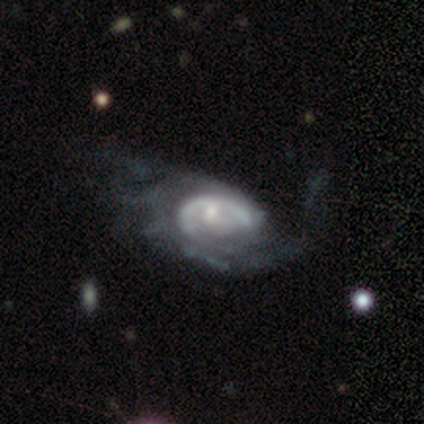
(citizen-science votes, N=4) A featured or disk galaxy (100%) with a weak bar (50%, tied with no), 2 (50%) tight (50%, tied with medium) spiral arms (100%) and a small central bulge (75%).

Vote fractions:
- Smooth or featured? featured or disk: 100% / smooth: 0% / star or artifact: 0%
- Edge-on disk? no: 100% / yes: 0%
- Bar? weak: 50% (tied) / no: 50% (tied) / strong: 0%
- Spiral arms? yes: 100% / no: 0%
- Spiral winding? tight: 50% (tied) / medium: 50% (tied) / loose: 0%
- Spiral arm count? 2: 50% / 1: 25% / 3: 25% / 4: 0% / more than 4: 0% / can't tell: 0%
- Bulge size? small: 75% / moderate: 25% / dominant: 0% / large: 0% / none: 0%
- Merging? none: 50% / minor disturbance: 25% / major disturbance: 25% / merger: 0%